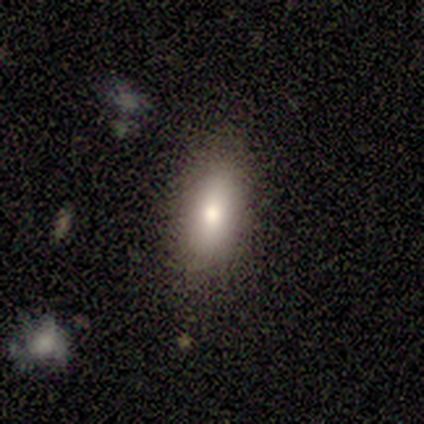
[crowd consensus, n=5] Smooth or featured? smooth (60%)
How rounded? in between (67%)
Merging? none (60%)